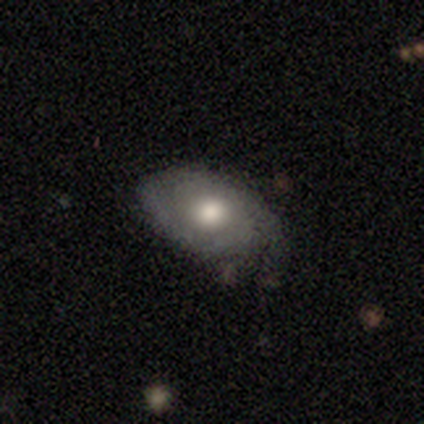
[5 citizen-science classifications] Smooth or featured: featured or disk — 80% (smooth — 20%)
Edge-on disk: no — 100%
Bar: no — 100%
Spiral arms: no — 75% (yes — 25%)
Bulge size: moderate — 100%
Merging: minor disturbance — 60% (none — 40%)